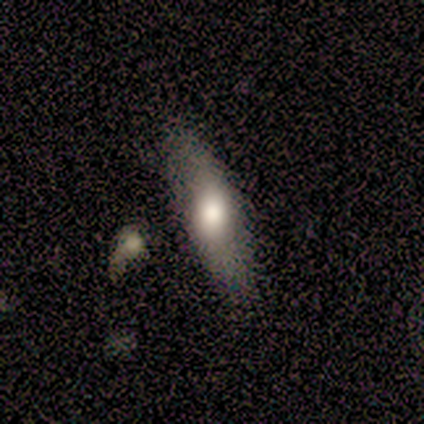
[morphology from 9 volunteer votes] Q: Smooth or featured?
A: smooth (44%); tied with: featured or disk (44%)
Q: How rounded?
A: in between (50%); tied with: cigar-shaped (50%)
Q: Merging?
A: none (88%); runner-up: minor disturbance (12%)